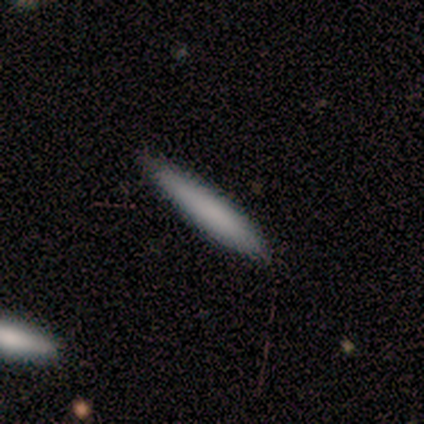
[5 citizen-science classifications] smooth 60%, featured or disk 40%, star or artifact 0%. Down the decision tree: how rounded — cigar-shaped (67%); merging — none (100%).